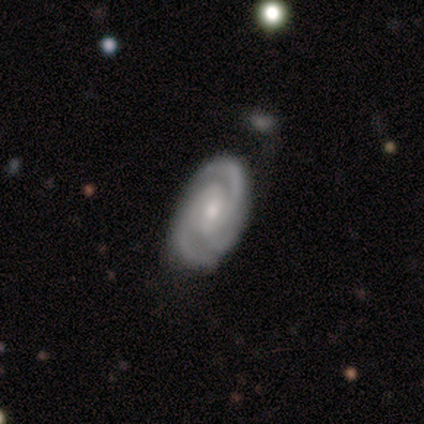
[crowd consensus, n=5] smooth-or-featured: featured or disk: 100% | smooth: 0% | star or artifact: 0%
  disk-edge-on: no: 80% | yes: 20%
    bar: weak: 50% | strong: 25% | no: 25%
    has-spiral-arms: yes: 75% | no: 25%
      spiral-winding: tight: 67% | loose: 33% | medium: 0%
      spiral-arm-count: 3: 67% | 2: 33% | 1: 0% | 4: 0% | more than 4: 0% | can't tell: 0%
    bulge-size: moderate: 75% | small: 25% | dominant: 0% | large: 0% | none: 0%
  merging: none: 80% | minor disturbance: 20% | major disturbance: 0% | merger: 0%